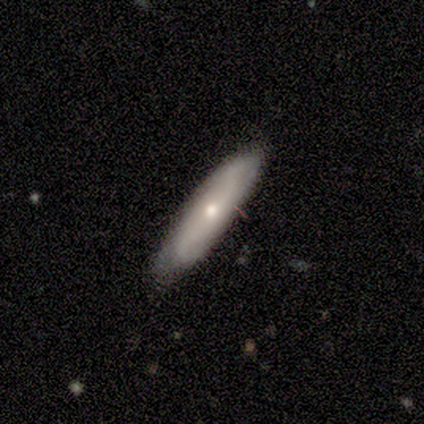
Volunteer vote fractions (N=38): Overall: featured or disk (50%; smooth 47%). Edge-on disk: no (63%; yes 37%). Bar: no (75%). Spiral arms: yes (75%). Spiral arm count: can't tell (67%). Spiral winding: loose (67%). Bulge size: moderate (50%, tied with small). Merging: none (76%).